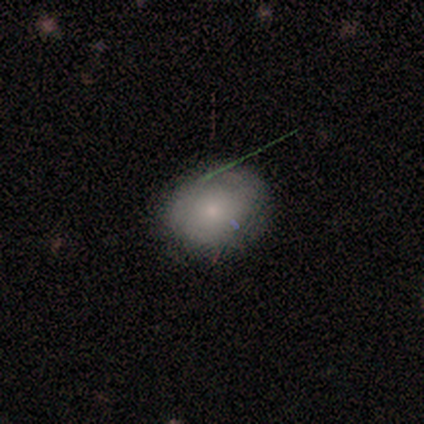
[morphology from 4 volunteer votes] Overall: smooth (75%). How rounded: round (100%). Merging: none (100%).